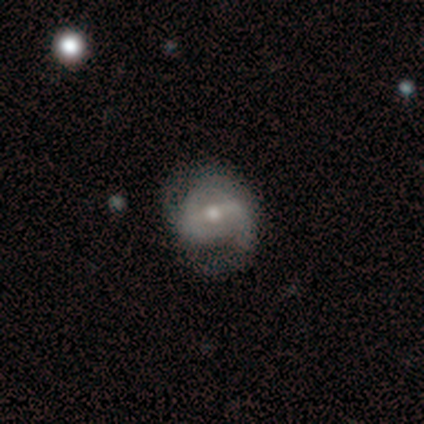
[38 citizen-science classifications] Smooth or featured? 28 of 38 (74%) said featured or disk. Edge-on disk? 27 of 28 (96%) said no. Bar? 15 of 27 (56%) said weak. Spiral arms? 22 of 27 (81%) said yes. Spiral winding? 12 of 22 (55%) said medium. Spiral arm count? 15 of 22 (68%) said 2. Bulge size? 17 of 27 (63%) said moderate. Merging? 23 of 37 (62%) said none.